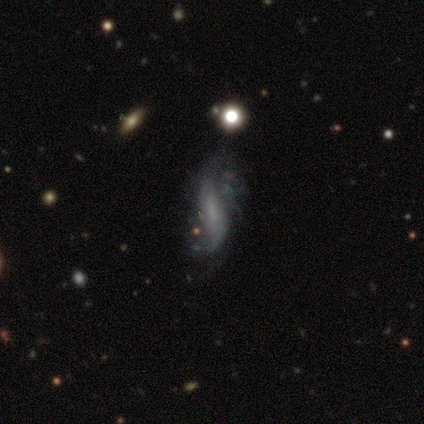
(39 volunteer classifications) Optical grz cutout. It shows a featured or disk galaxy (82%) with no bar (53%), loose (74%) spiral arms (63%) and no central bulge (60%). Merging: none (35%).